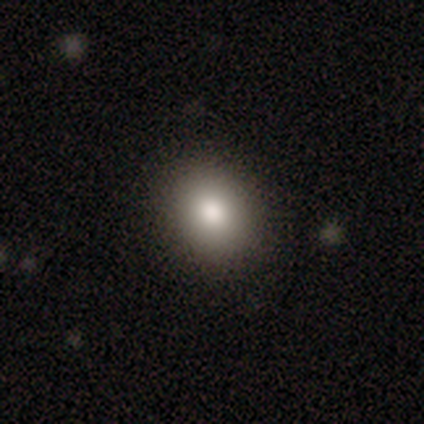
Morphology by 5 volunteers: Smooth or featured? 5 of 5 (100%) said smooth. How rounded? 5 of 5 (100%) said round. Merging? 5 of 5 (100%) said none.